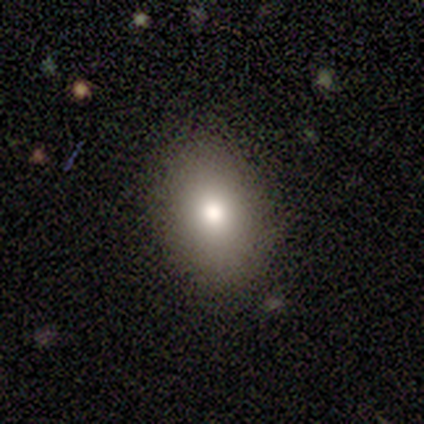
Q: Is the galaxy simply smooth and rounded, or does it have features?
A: smooth — 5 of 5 (100%).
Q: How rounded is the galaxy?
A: in between — 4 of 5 (80%).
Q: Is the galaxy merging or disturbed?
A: none — 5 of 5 (100%).